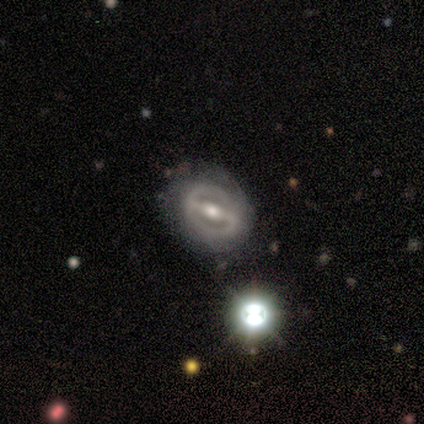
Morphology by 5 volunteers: Volunteers were most divided on "spiral arms": no: 60%, yes: 40%. More confident: smooth or featured — featured or disk (100%); edge-on disk — no (100%); bulge size — moderate (100%); bar — strong (80%); merging — none (80%).